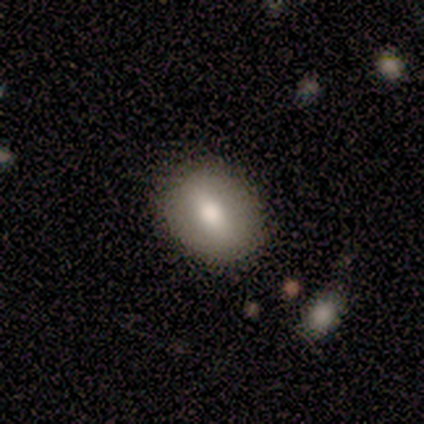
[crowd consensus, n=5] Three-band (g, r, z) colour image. It shows a smooth galaxy with no disk features (80%) that is in between round and cigar-shaped (100%). Merging: none (100%).